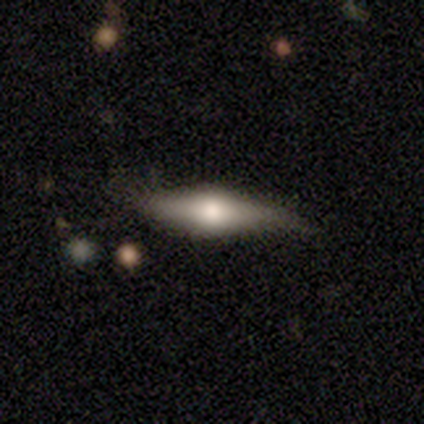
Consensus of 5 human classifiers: Smooth or featured?
  - featured or disk: 60% *
  - smooth: 20%
  - star or artifact: 20%
Edge-on disk?
  - yes: 100% *
  - no: 0%
Edge-on bulge?
  - rounded: 100% *
  - boxy: 0%
  - none: 0%
Merging?
  - none: 100% *
  - minor disturbance: 0%
  - major disturbance: 0%
  - merger: 0%